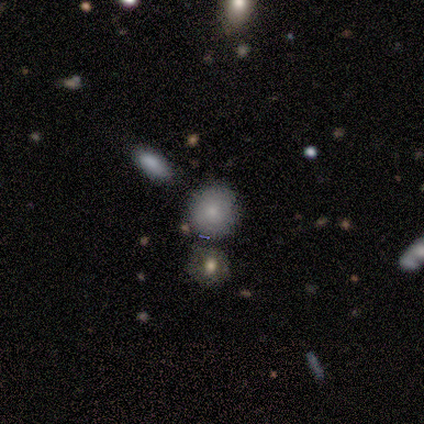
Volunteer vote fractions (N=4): Q: Smooth or featured?
A: smooth (75%); runner-up: featured or disk (25%)
Q: How rounded?
A: round (100%)
Q: Merging?
A: none (75%); runner-up: minor disturbance (25%)